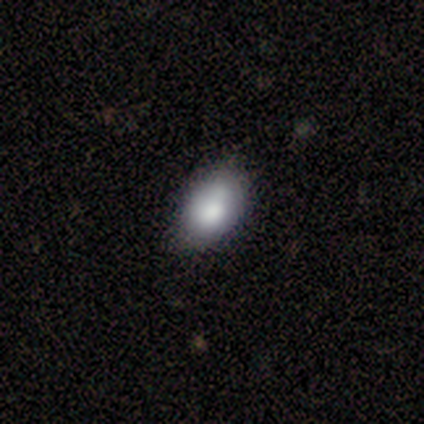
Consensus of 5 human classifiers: Smooth or featured?
  - smooth: 80% *
  - featured or disk: 20%
  - star or artifact: 0%
How rounded?
  - in between: 100% *
  - round: 0%
  - cigar-shaped: 0%
Merging?
  - none: 60% *
  - minor disturbance: 20%
  - major disturbance: 20%
  - merger: 0%